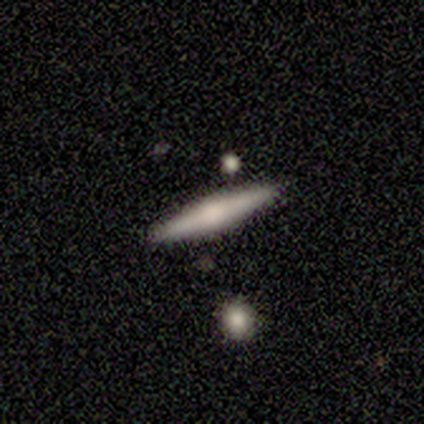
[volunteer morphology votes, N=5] type=smooth (60%); roundness=cigar-shaped (100%); merging=none (80%).